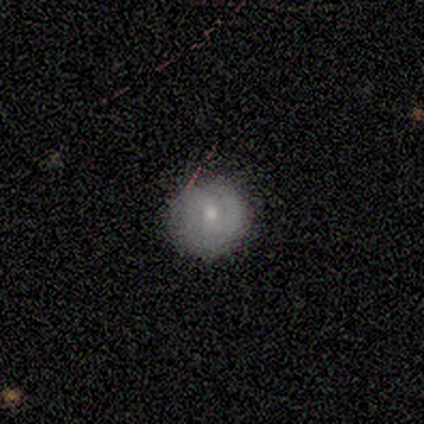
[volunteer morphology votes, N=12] This appears to be a smooth galaxy with no disk features (75%) that is round (100%). Merging: none (82%).